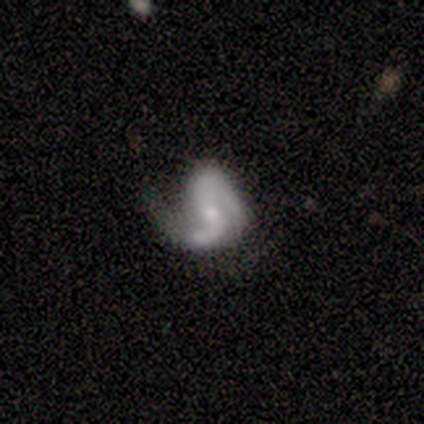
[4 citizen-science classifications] featured or disk 75%, star or artifact 25%, smooth 0%. Down the decision tree: edge-on disk — no (100%); bar — weak (67%); spiral arms — yes (67%); spiral arm count — 1 (50%, tied with 2); spiral winding — tight (50%, tied with loose); bulge size — small (67%); merging — major disturbance (67%).